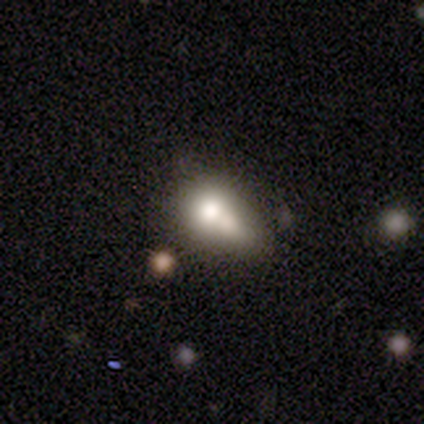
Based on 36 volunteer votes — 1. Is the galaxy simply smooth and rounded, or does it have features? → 75% smooth, 17% featured or disk, 8% star or artifact.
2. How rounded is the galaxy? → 70% in between, 30% round, 0% cigar-shaped.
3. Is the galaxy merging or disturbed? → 42% merger, 30% minor disturbance, 18% none, 9% major disturbance.